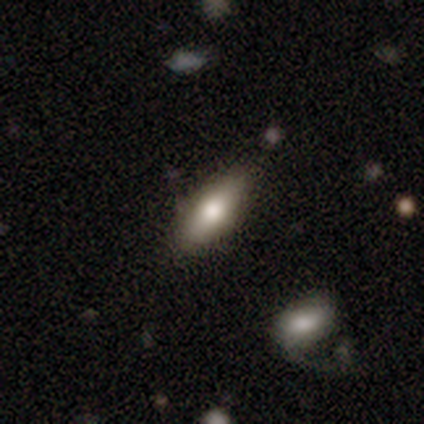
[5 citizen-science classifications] This is likely a featured or disk galaxy (60%). It is clearly viewed edge-on (100%). Edge-on bulge: clearly rounded (100%). Merging: likely none (75%).